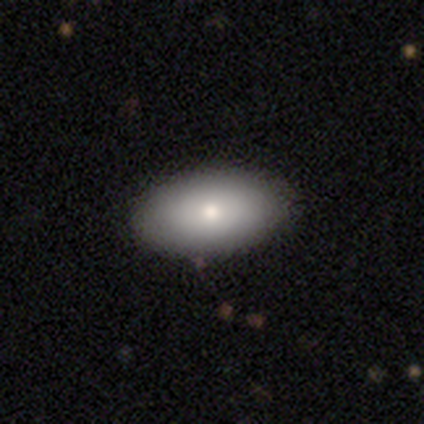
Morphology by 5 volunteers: A smooth galaxy with no disk features (80%) that is in between round and cigar-shaped (100%).

Vote fractions:
- Smooth or featured? smooth: 80% / featured or disk: 20% / star or artifact: 0%
- How rounded? in between: 100% / round: 0% / cigar-shaped: 0%
- Merging? none: 100% / minor disturbance: 0% / major disturbance: 0% / merger: 0%